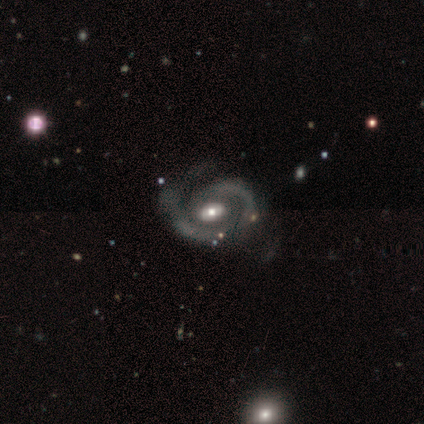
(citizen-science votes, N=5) Smooth or featured: featured or disk — 100%
Edge-on disk: no — 100%
Bar: weak — 60% (no — 40%)
Spiral arms: yes — 100%
Spiral winding: medium — 60% (tight — 20%)
Spiral arm count: 2 — 80% (1 — 20%)
Bulge size: moderate — 80% (small — 20%)
Merging: minor disturbance — 60% (none — 20%)